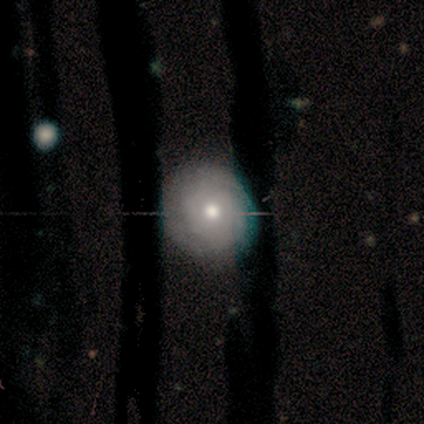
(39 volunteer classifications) Overall: featured or disk (56%; smooth 31%). Edge-on disk: no (100%). Bar: no (100%). Spiral arms: yes (68%; no 32%). Spiral arm count: can't tell (73%). Spiral winding: tight (87%). Bulge size: moderate (82%). Merging: none (74%).